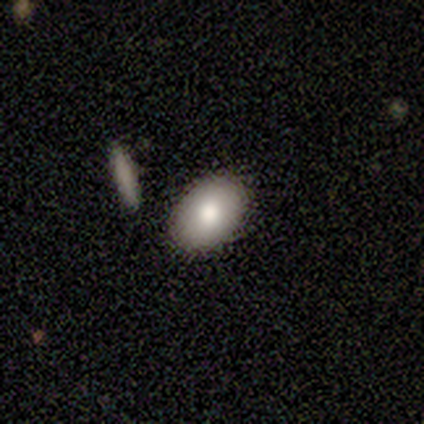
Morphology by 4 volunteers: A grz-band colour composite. It shows a smooth galaxy with no disk features (100%) that is in between round and cigar-shaped (75%). Merging: none (100%).